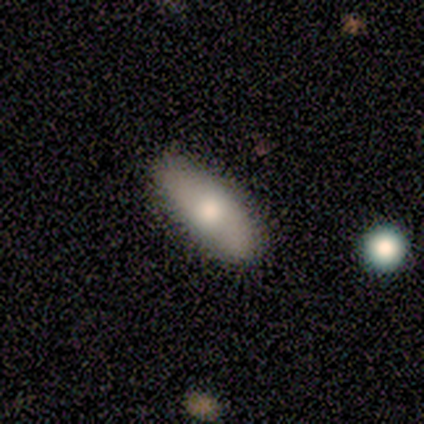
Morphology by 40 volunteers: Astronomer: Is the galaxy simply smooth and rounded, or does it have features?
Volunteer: smooth — 57% (runner-up: featured or disk, 42%).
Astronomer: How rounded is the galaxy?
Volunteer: in between — 74%.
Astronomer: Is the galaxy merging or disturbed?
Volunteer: none — 60%.